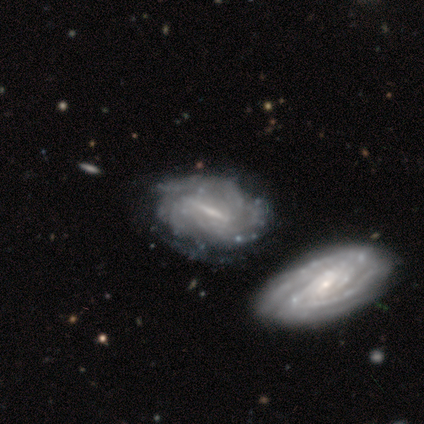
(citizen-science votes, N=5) Volunteers were most divided on "spiral winding" (2-way tie): tight: 50%, loose: 50%, medium: 0%; "spiral arm count" (2-way tie): more than 4: 50%, can't tell: 50%, 1: 0%, 2: 0%, 3: 0%, 4: 0%; "merging" (2-way tie): major disturbance: 40%, merger: 40%, none: 20%, minor disturbance: 0%. More confident: smooth or featured — featured or disk (100%); edge-on disk — no (100%); spiral arms — yes (80%); bulge size — small (80%); bar — strong (60%).